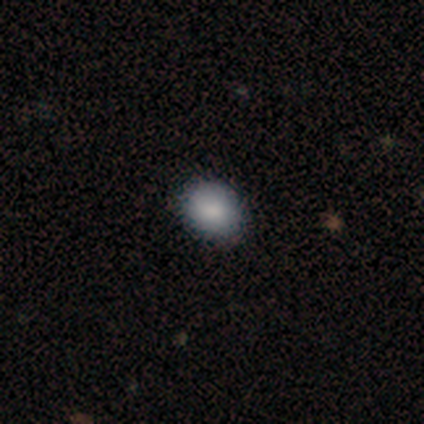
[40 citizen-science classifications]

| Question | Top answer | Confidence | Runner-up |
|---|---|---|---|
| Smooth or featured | smooth | 85% | star or artifact (10%) |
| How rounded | in between | 53% | round (47%) |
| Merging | none | 75% | minor disturbance (8%) |